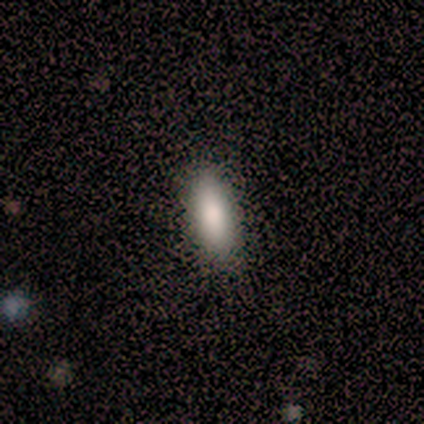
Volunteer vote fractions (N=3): Overall: smooth (100%). How rounded: in between (67%; cigar-shaped 33%). Merging: none (100%).